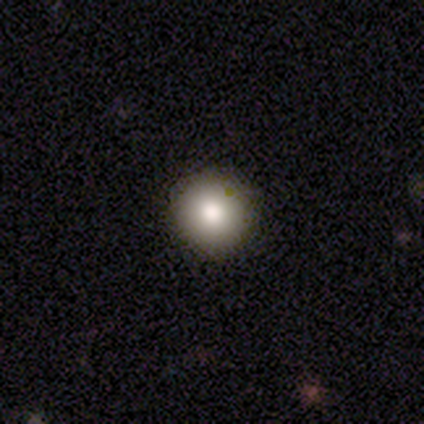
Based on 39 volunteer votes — Volunteers were most divided on "smooth or featured": smooth: 85%, featured or disk: 8%, star or artifact: 8%. More confident: how rounded — round (100%); merging — none (94%).